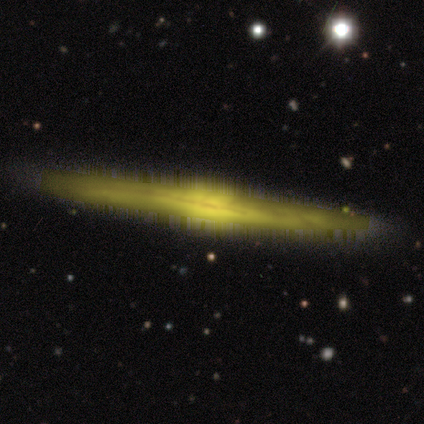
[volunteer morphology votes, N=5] featured or disk 100%, smooth 0%, star or artifact 0%. Down the decision tree: edge-on disk — yes (100%); edge-on bulge — boxy (60%); merging — none (100%).